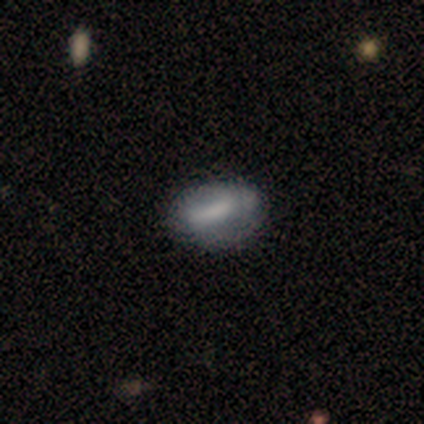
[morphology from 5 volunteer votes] featured or disk 60%, smooth 40%, star or artifact 0%. Down the decision tree: edge-on disk — no (100%); bar — strong (100%); spiral arms — yes (67%); spiral arm count — can't tell (100%); spiral winding — medium (50%, tied with loose); bulge size — none (67%); merging — none (80%).